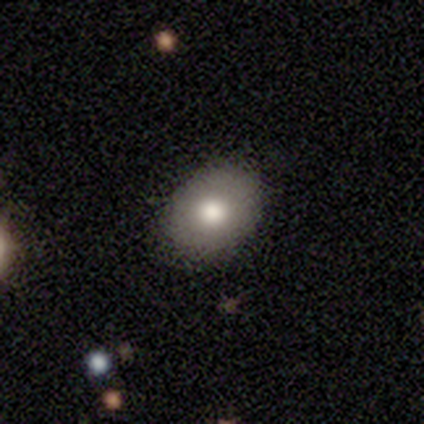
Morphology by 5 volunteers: type=smooth (100%); roundness=in between (80%); merging=none (100%).